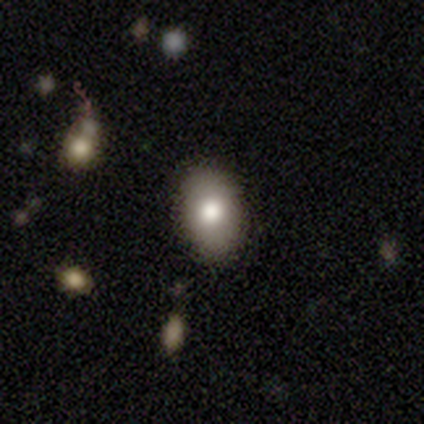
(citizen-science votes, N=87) This appears to be a smooth galaxy with no disk features (76%) that is in between round and cigar-shaped (95%). Merging: none (83%).